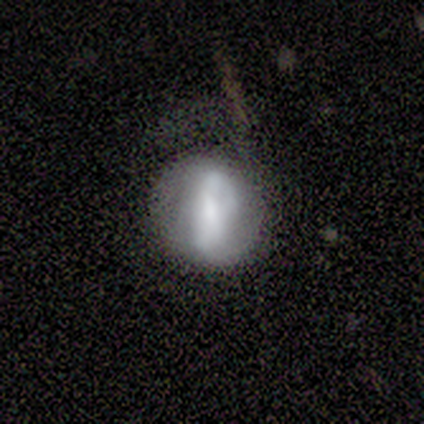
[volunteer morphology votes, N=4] A featured or disk galaxy (75%) with a strong bar (67%), 2 (100%) tight (50%, tied with medium) spiral arms (67%) and a moderate central bulge (67%).

Vote fractions:
- Smooth or featured? featured or disk: 75% / smooth: 25% / star or artifact: 0%
- Edge-on disk? no: 100% / yes: 0%
- Bar? strong: 67% / weak: 33% / no: 0%
- Spiral arms? yes: 67% / no: 33%
- Spiral winding? tight: 50% (tied) / medium: 50% (tied) / loose: 0%
- Spiral arm count? 2: 100% / 1: 0% / 3: 0% / 4: 0% / more than 4: 0% / can't tell: 0%
- Bulge size? moderate: 67% / large: 33% / dominant: 0% / small: 0% / none: 0%
- Merging? minor disturbance: 50% / none: 25% / major disturbance: 25% / merger: 0%